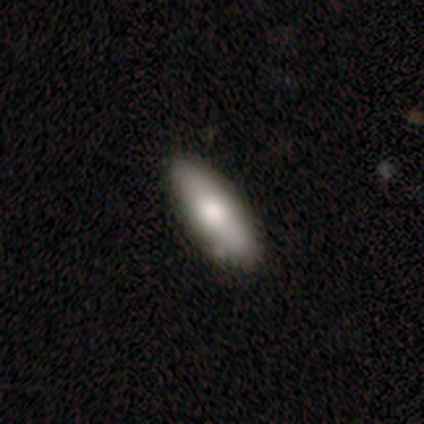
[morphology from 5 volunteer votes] A smooth galaxy with no disk features (80%) that is in between round and cigar-shaped (100%). Merging: none (100%).